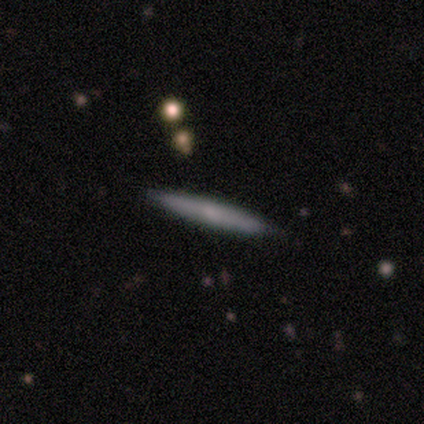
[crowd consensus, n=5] Smooth or featured? 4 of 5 (80%) said smooth. How rounded? 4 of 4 (100%) said cigar-shaped. Merging? 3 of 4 (75%) said none.